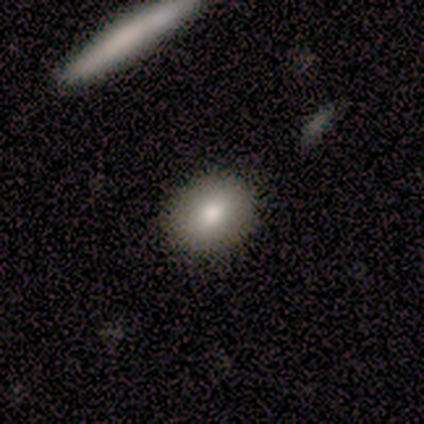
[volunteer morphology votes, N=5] Volunteers were most divided on "how rounded": in between: 60%, round: 40%, cigar-shaped: 0%. More confident: smooth or featured — smooth (100%); merging — none (100%).